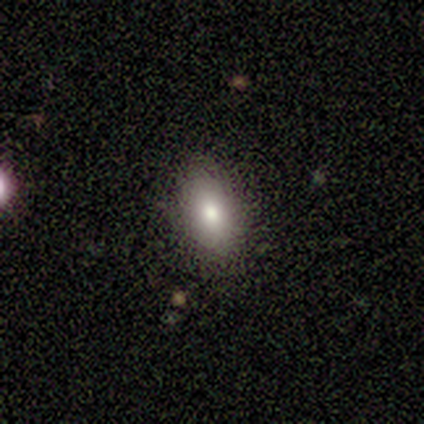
Smooth or featured? smooth (60%)
How rounded? in between (100%)
Merging? none (75%)